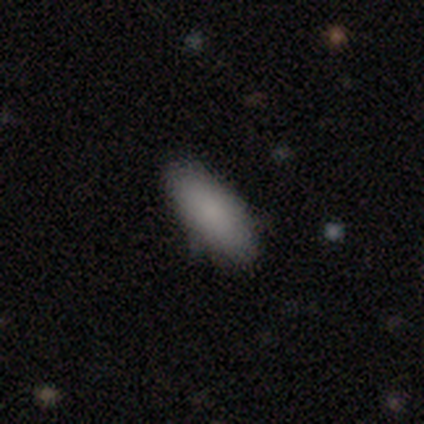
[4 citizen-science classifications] Morphology: type=smooth (75%); roundness=cigar-shaped (67%); merging=none (67%).